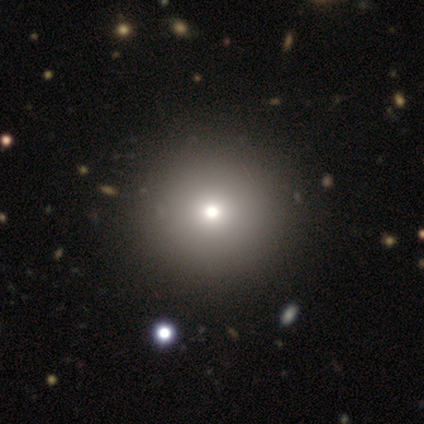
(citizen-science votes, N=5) A smooth galaxy with no disk features (100%) that is round (100%). Merging: none (80%).